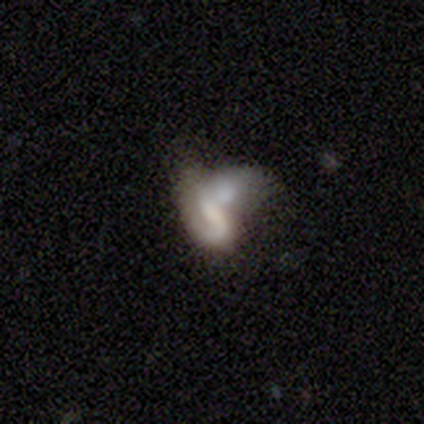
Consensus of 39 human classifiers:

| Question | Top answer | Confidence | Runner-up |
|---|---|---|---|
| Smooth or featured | featured or disk | 64% | smooth (23%) |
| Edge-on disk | no | 96% | yes (4%) |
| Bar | no | 50% | weak (33%) |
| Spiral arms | yes | 58% | no (42%) |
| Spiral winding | medium | 36% | tied: loose (36%) |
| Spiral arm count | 1 | 57% | can't tell (29%) |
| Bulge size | none | 54% | moderate (29%) |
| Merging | merger | 65% | major disturbance (21%) |